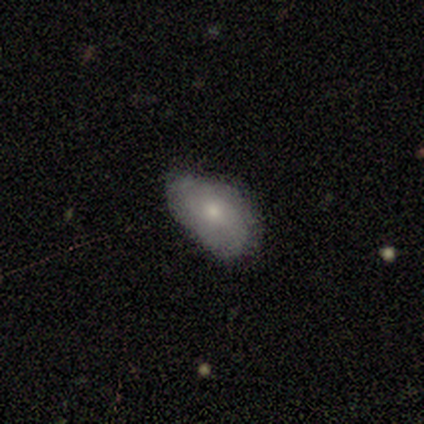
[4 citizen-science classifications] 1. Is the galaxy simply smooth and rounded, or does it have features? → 100% smooth, 0% featured or disk, 0% star or artifact.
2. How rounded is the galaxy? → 100% in between, 0% round, 0% cigar-shaped.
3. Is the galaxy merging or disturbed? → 100% none, 0% minor disturbance, 0% major disturbance, 0% merger.